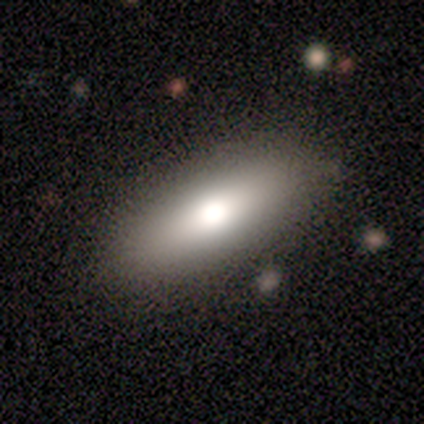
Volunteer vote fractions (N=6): A smooth galaxy with no disk features (83%) that is in between round and cigar-shaped (80%). Merging: none (83%).